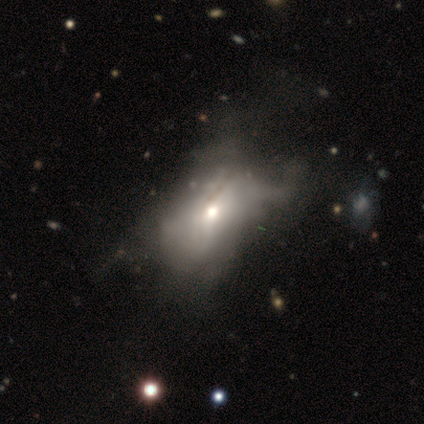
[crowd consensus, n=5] smooth 60%, featured or disk 20%, star or artifact 20%. Down the decision tree: how rounded — in between (100%); merging — none (50%).